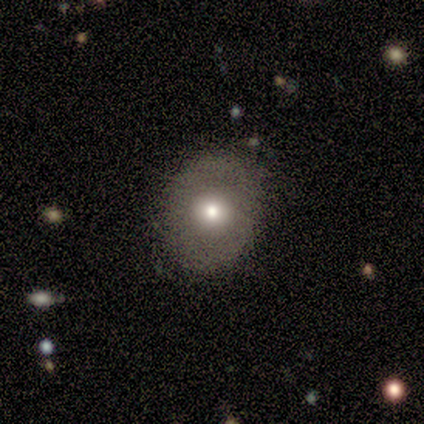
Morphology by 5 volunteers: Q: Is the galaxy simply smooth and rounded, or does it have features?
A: smooth — 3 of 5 (60%).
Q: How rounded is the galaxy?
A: round — 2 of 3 (67%).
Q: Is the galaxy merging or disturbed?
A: none — 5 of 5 (100%).